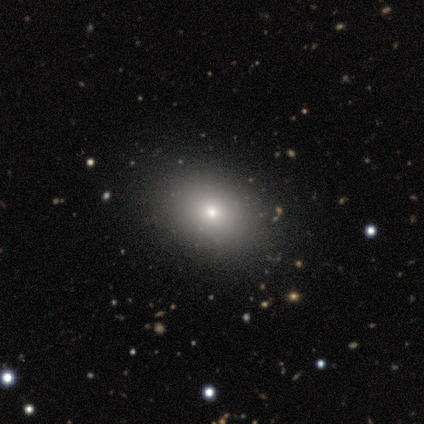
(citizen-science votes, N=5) Smooth or featured: smooth — 60% (featured or disk — 40%)
How rounded: in between — 67% (round — 33%)
Merging: none — 100%